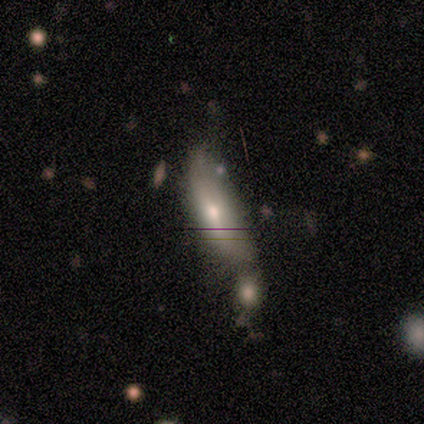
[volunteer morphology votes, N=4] This appears to be a featured or disk galaxy (75%) viewed edge-on (67%) with a rounded central bulge (100%). Merging: none (50%).